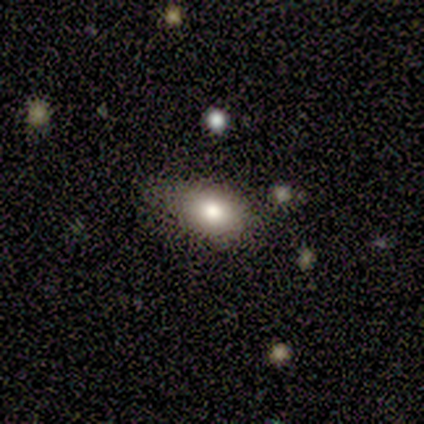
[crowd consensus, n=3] smooth 100%, featured or disk 0%, star or artifact 0%. Down the decision tree: how rounded — in between (100%); merging — none (67%).